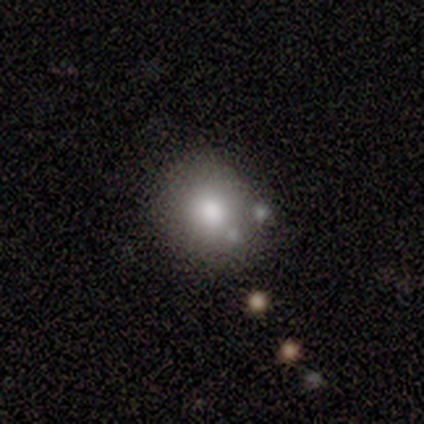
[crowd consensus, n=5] Overall: smooth (80%). How rounded: round (75%). Merging: none (50%, tied with minor disturbance).